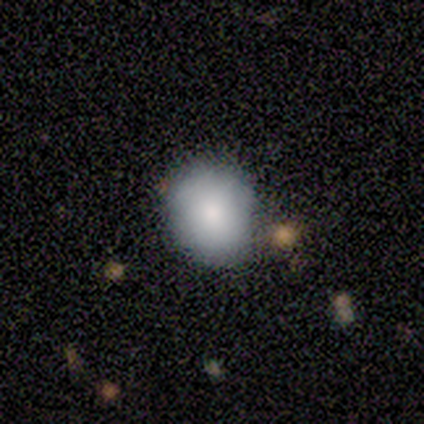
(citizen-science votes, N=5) Q: Smooth or featured?
A: smooth (100%)
Q: How rounded?
A: round (100%)
Q: Merging?
A: none (100%)